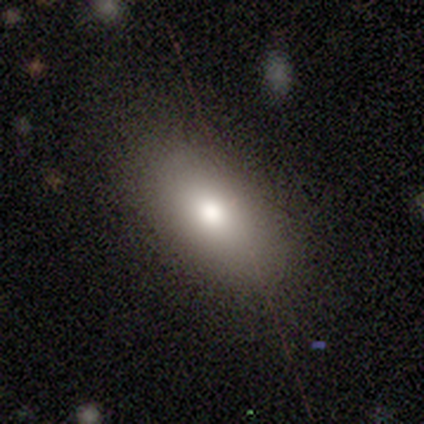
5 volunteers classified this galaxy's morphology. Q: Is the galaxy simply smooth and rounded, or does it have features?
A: smooth — 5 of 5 (100%).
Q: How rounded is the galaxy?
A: in between — 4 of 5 (80%).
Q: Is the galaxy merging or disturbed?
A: none — 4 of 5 (80%).